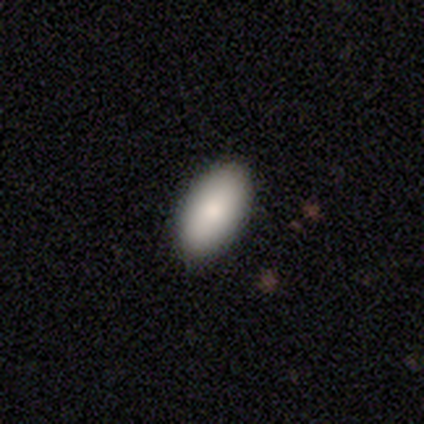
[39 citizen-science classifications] smooth_or_featured: smooth (p=0.85) [alt: featured or disk p=0.13]
how_rounded: in between (p=1.00)
merging: none (p=0.61) [alt: minor disturbance p=0.08]